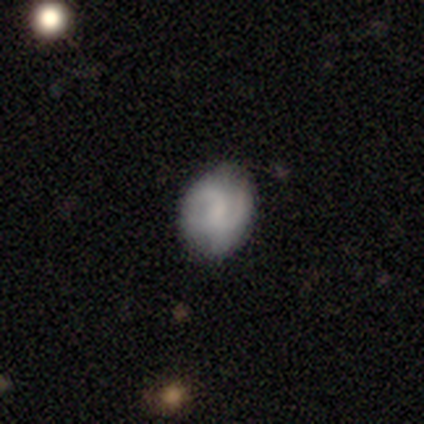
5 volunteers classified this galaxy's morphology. Smooth or featured: featured or disk — 60% (smooth — 20%)
Edge-on disk: no — 100%
Bar: strong — 33% (tied with weak — 33%; no — 33%)
Spiral arms: yes — 67% (no — 33%)
Spiral winding: tight — 50% (tied with loose — 50%)
Spiral arm count: 2 — 100%
Bulge size: none — 67% (small — 33%)
Merging: none — 100%